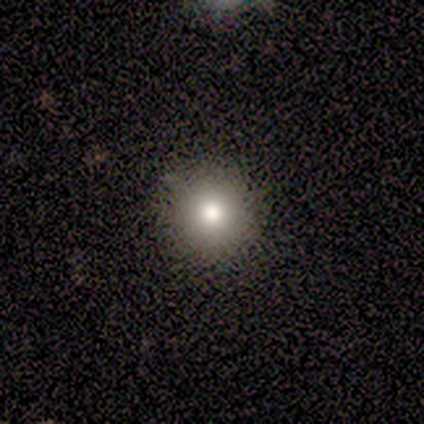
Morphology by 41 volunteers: This is likely a smooth galaxy (71%). How rounded: clearly round (97%). Merging: clearly none (94%).